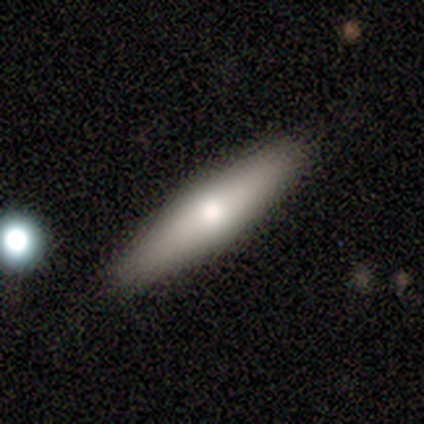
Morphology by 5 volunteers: Smooth or featured? 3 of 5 (60%) said smooth. How rounded? 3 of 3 (100%) said cigar-shaped. Merging? 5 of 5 (100%) said none.